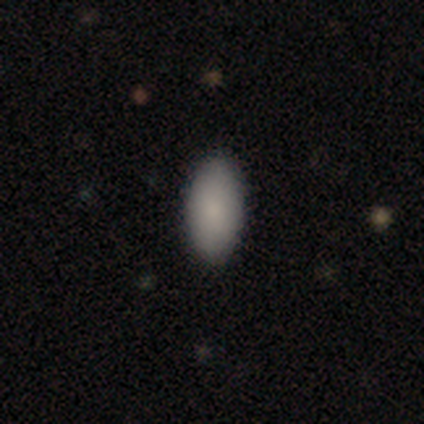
Smooth or featured? smooth (60%)
How rounded? in between (67%)
Merging? none (67%)